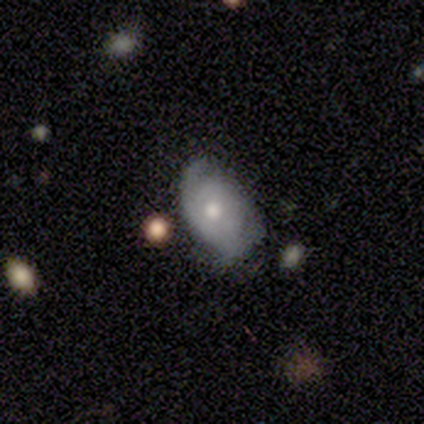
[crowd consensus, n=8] A featured or disk galaxy (62%) with no bar (100%), 2 (100%) medium (67%) spiral arms (60%) and a moderate central bulge (100%). Merging: none (71%).